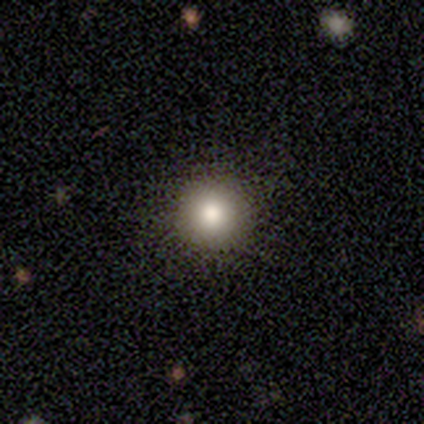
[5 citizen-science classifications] Overall: smooth (60%; star or artifact 40%). How rounded: round (100%). Merging: none (100%).